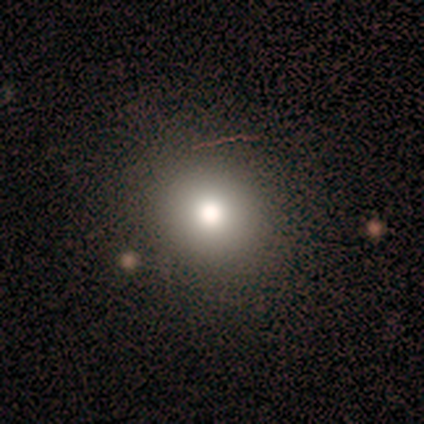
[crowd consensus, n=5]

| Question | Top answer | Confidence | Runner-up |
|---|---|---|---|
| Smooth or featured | star or artifact | 60% | smooth (40%) |